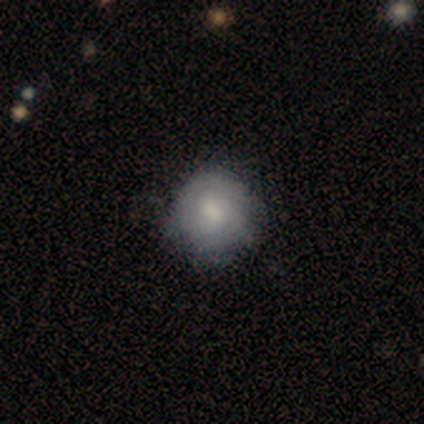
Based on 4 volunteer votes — Morphology: type=featured or disk (75%); edge-on=no (100%); bar=no (67%); spiral arms=yes (67%); winding=tight (50%, tied with medium); arm count=can't tell (100%); bulge=small (67%); merging=none (75%).